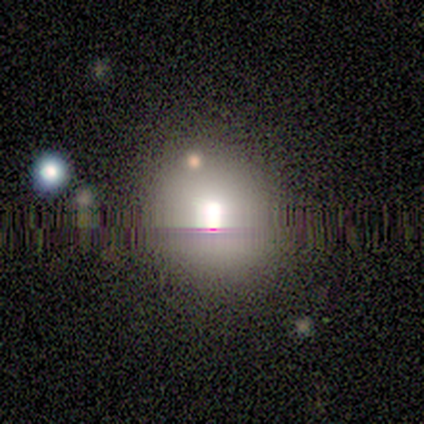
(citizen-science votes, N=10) This is likely a smooth galaxy (60%). How rounded: clearly round (83%). Merging: likely none (62%).